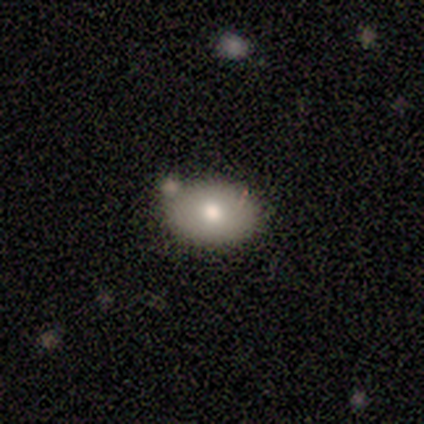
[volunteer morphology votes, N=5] Smooth or featured?
  - smooth: 80% *
  - featured or disk: 20%
  - star or artifact: 0%
How rounded?
  - in between: 75% *
  - round: 25%
  - cigar-shaped: 0%
Merging?
  - none: 80% *
  - minor disturbance: 20%
  - major disturbance: 0%
  - merger: 0%